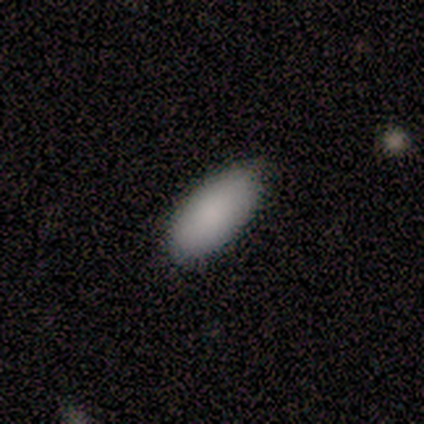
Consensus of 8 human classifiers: Morphology: type=smooth (100%); roundness=in between (88%); merging=none (88%).